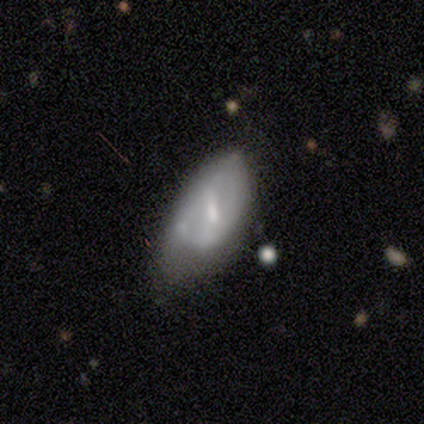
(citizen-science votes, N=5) featured or disk 80%, smooth 20%, star or artifact 0%. Down the decision tree: edge-on disk — no (100%); bar — weak (50%); spiral arms — no (75%); bulge size — moderate (50%, tied with none); merging — major disturbance (60%).